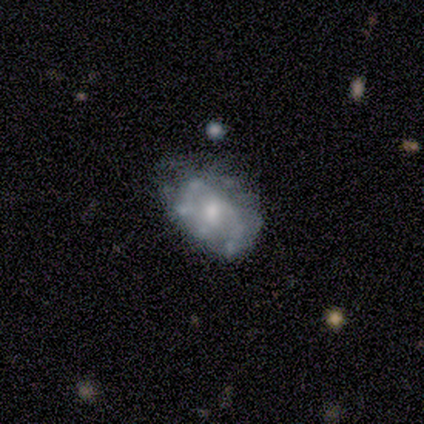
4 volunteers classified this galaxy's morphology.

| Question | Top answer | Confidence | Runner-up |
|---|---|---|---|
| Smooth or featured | featured or disk | 75% | smooth (25%) |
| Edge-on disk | no | 100% | — |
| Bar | no | 67% | weak (33%) |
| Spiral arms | no | 67% | yes (33%) |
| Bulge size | moderate | 67% | none (33%) |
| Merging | minor disturbance | 50% | none (25%) |